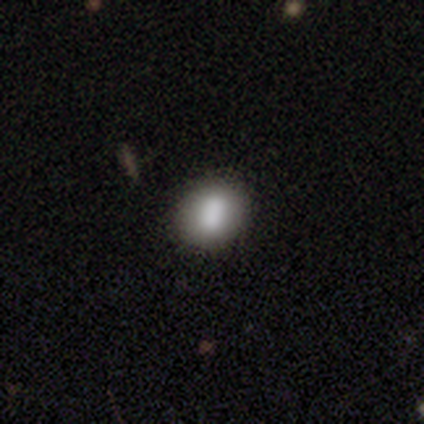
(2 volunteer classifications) Morphology: type=smooth (100%); roundness=round (50%, tied with in between); merging=none (100%).